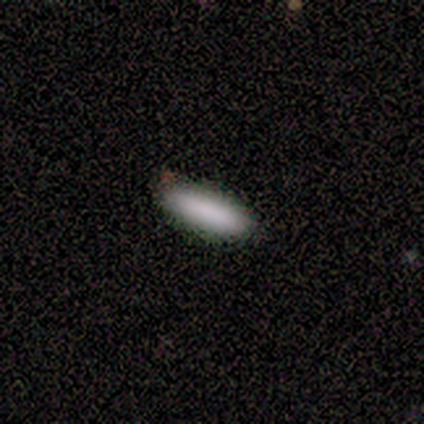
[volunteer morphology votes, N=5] A smooth galaxy with no disk features (100%) that is cigar-shaped (80%).

Vote fractions:
- Smooth or featured? smooth: 100% / featured or disk: 0% / star or artifact: 0%
- How rounded? cigar-shaped: 80% / in between: 20% / round: 0%
- Merging? none: 100% / minor disturbance: 0% / major disturbance: 0% / merger: 0%